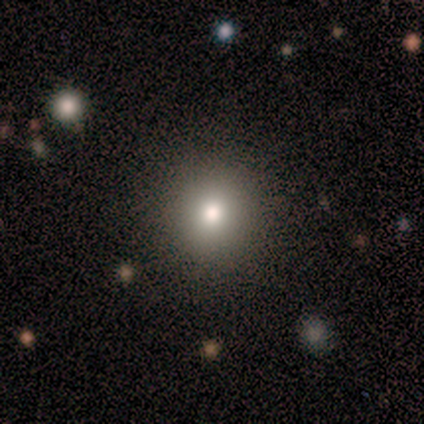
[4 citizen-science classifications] A smooth galaxy with no disk features (75%) that is round (100%).

Vote fractions:
- Smooth or featured? smooth: 75% / star or artifact: 25% / featured or disk: 0%
- How rounded? round: 100% / in between: 0% / cigar-shaped: 0%
- Merging? none: 100% / minor disturbance: 0% / major disturbance: 0% / merger: 0%